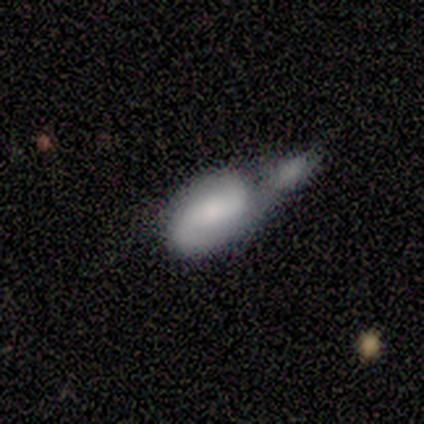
featured or disk 60%, smooth 20%, star or artifact 20%. Down the decision tree: edge-on disk — no (100%); bar — no (100%); spiral arms — no (67%); bulge size — large (33%, tied with moderate and none); merging — none (25%, tied with minor disturbance, major disturbance and merger).